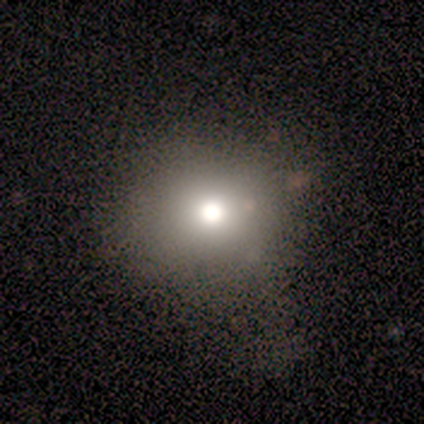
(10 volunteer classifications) smooth_or_featured: smooth (p=0.80) [alt: featured or disk p=0.10]
how_rounded: round (p=0.88) [alt: in between p=0.12]
merging: minor disturbance (p=0.44) [alt: none p=0.33]